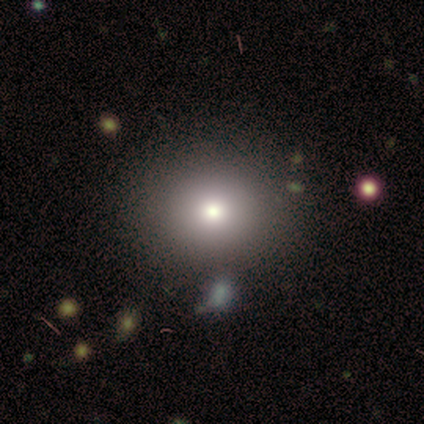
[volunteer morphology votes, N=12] smooth 92%, featured or disk 8%, star or artifact 0%. Down the decision tree: how rounded — round (100%); merging — none (83%).